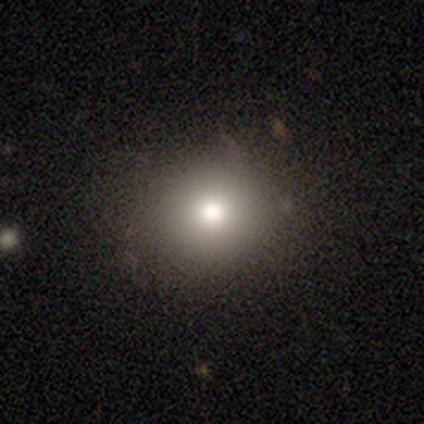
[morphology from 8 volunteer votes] A smooth galaxy with no disk features (50%) that is round (75%). Merging: none (100%).